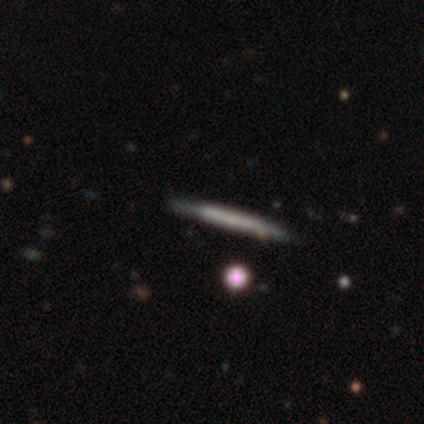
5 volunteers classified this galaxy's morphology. Volunteers were most divided on "smooth or featured": smooth: 60%, featured or disk: 40%, star or artifact: 0%. More confident: how rounded — cigar-shaped (100%); merging — none (80%).